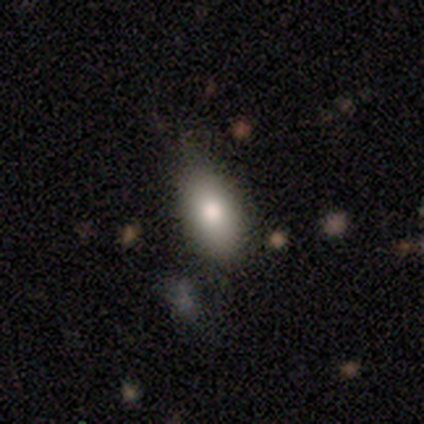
Volunteers were most divided on "merging": none: 75%, minor disturbance: 25%, major disturbance: 0%, merger: 0%. More confident: smooth or featured — smooth (100%); how rounded — in between (100%).